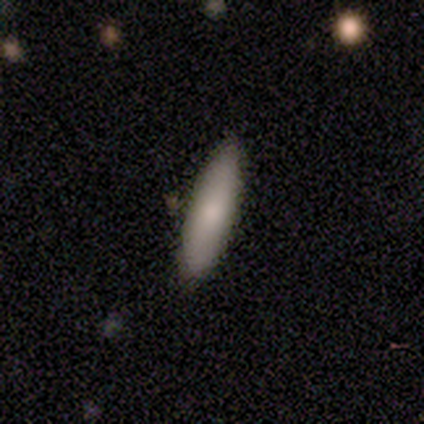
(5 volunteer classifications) Volunteers were most divided on "how rounded": in between: 60%, cigar-shaped: 40%, round: 0%. More confident: smooth or featured — smooth (100%); merging — none (100%).